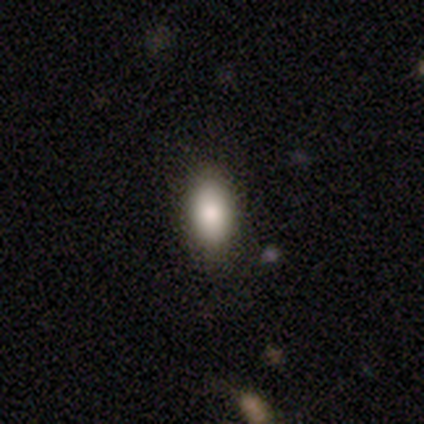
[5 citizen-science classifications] This appears to be a smooth galaxy with no disk features (100%) that is in between round and cigar-shaped (100%). Merging: none (100%).